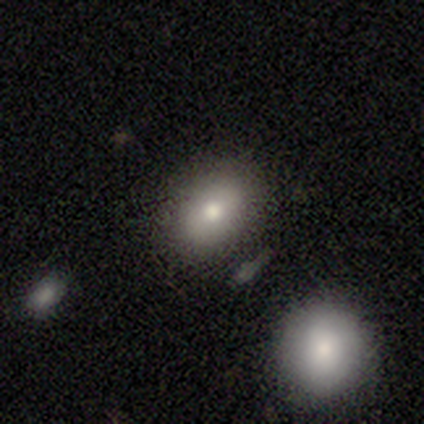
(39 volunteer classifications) Smooth or featured? smooth (82%)
How rounded? in between (62%)
Merging? none (74%)